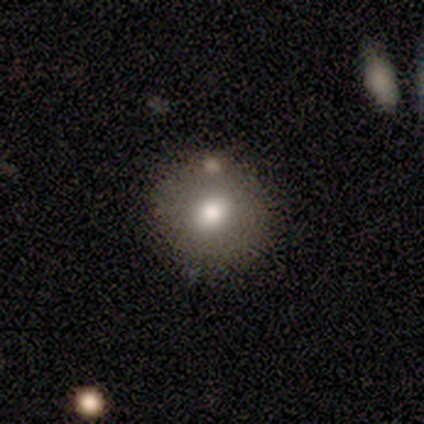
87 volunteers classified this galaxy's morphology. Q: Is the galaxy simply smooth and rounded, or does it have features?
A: smooth — 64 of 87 (74%).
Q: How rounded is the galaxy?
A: round — 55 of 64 (86%).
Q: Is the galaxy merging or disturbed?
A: none — 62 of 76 (82%).